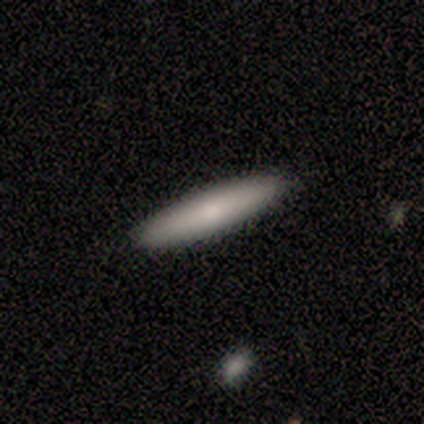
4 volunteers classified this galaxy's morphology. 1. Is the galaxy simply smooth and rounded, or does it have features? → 75% smooth, 25% featured or disk, 0% star or artifact.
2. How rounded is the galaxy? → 67% cigar-shaped, 33% in between, 0% round.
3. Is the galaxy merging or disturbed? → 100% none, 0% minor disturbance, 0% major disturbance, 0% merger.